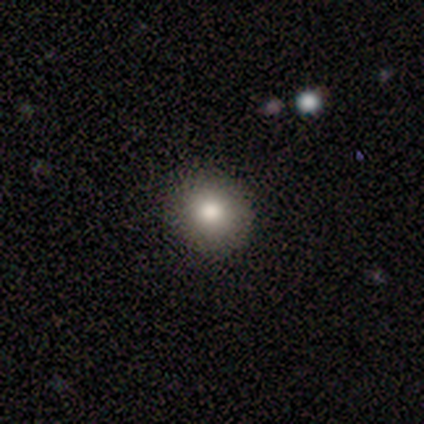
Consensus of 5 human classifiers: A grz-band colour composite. It shows a smooth galaxy with no disk features (100%) that is round (100%). Merging: none (100%).